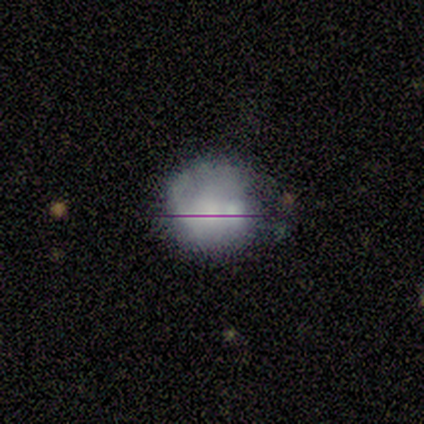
A star or artifact, not a galaxy (43%).